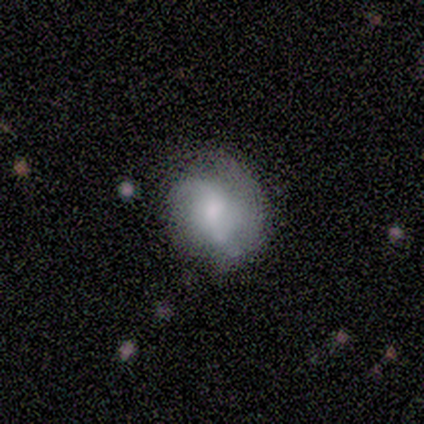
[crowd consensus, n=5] This appears to be a featured or disk galaxy (100%) with a weak bar (80%), 2 (80%) loose (80%) spiral arms (100%) and a moderate central bulge (40%). Merging: none (40%, tied with minor disturbance).